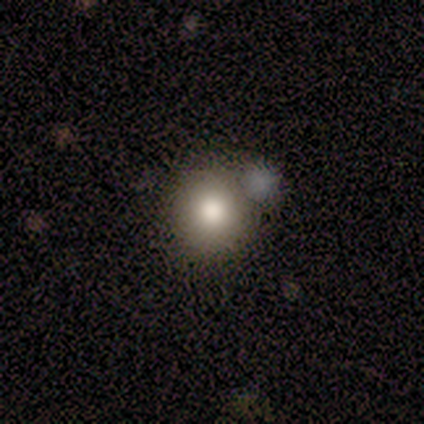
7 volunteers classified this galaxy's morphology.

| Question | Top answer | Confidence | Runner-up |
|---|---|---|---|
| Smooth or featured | smooth | 86% | featured or disk (14%) |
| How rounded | round | 100% | — |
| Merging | none | 57% | merger (29%) |